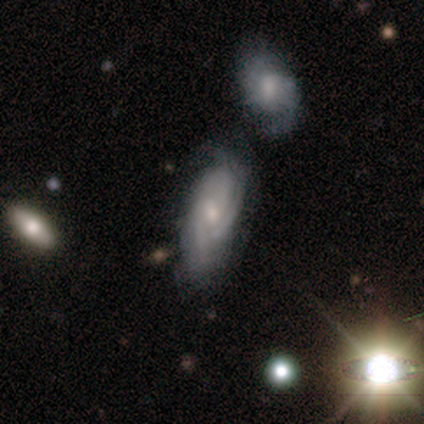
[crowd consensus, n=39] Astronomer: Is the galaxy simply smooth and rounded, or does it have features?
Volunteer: featured or disk — 64%.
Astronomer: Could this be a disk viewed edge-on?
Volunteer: no — 92%.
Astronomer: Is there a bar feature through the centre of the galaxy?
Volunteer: weak — 52% (runner-up: no, 48%).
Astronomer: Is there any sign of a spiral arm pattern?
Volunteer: yes — 96%.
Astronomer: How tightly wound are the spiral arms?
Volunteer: tight — 45% (runner-up: medium, 41%).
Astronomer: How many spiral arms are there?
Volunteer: can't tell — 45% (runner-up: 3, 23%).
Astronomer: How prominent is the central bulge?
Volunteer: small — 83%.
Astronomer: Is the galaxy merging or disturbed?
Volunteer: none — 43% (runner-up: merger, 23%).